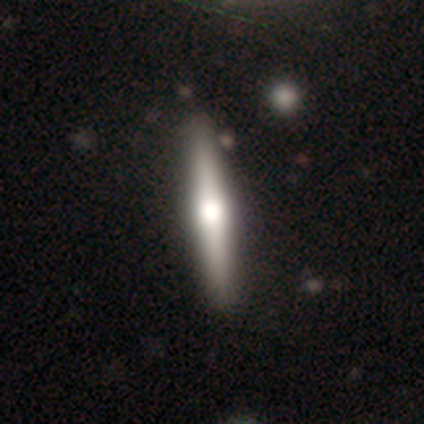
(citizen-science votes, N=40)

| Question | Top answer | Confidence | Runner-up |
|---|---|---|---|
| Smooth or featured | featured or disk | 65% | smooth (30%) |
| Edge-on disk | yes | 100% | — |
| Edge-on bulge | rounded | 96% | boxy (4%) |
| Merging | none | 87% | merger (3%) |